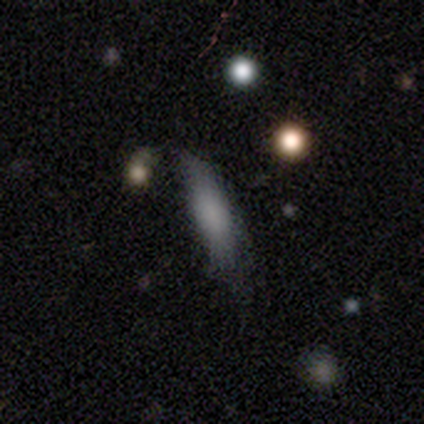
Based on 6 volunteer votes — Smooth or featured: smooth — 67% (featured or disk — 33%)
How rounded: cigar-shaped — 75% (in between — 25%)
Merging: none — 83% (minor disturbance — 17%)